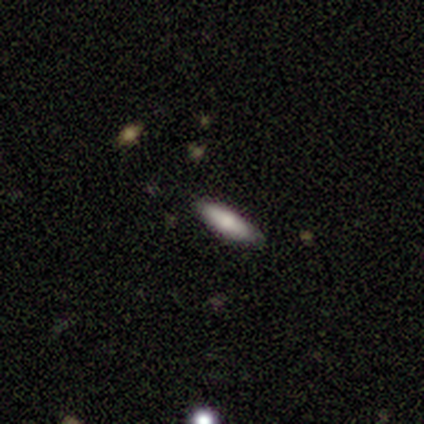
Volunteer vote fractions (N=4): smooth 75%, featured or disk 25%, star or artifact 0%. Down the decision tree: how rounded — in between (100%); merging — none (100%).